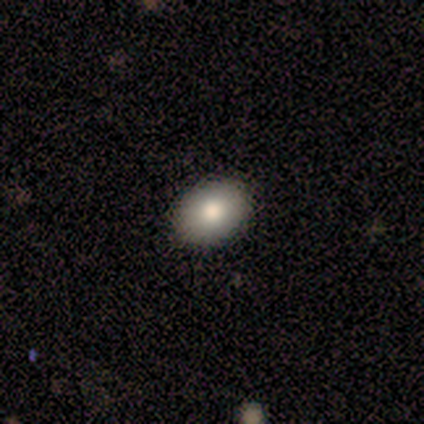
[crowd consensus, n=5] This is clearly a smooth galaxy (100%). How rounded: clearly in between (80%). Merging: clearly none (80%).